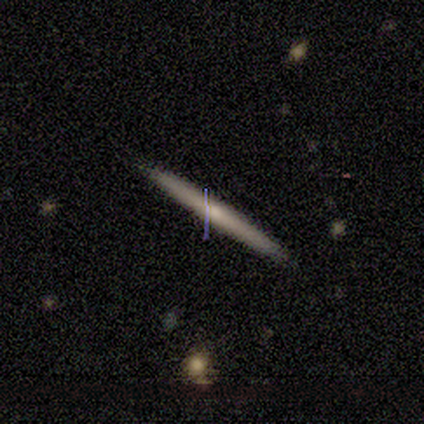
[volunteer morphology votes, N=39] Q: Smooth or featured?
A: featured or disk (62%); runner-up: smooth (36%)
Q: Edge-on disk?
A: yes (96%); runner-up: no (4%)
Q: Edge-on bulge?
A: none (57%); runner-up: rounded (39%)
Q: Merging?
A: none (84%); runner-up: minor disturbance (5%)